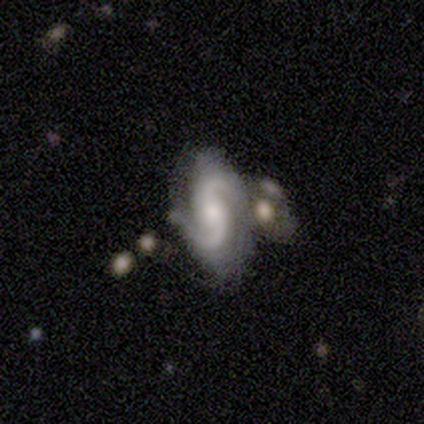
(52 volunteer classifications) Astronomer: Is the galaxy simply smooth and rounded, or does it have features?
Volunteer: featured or disk — 94%.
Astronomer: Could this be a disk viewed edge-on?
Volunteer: no — 98%.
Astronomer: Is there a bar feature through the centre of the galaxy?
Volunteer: no — 65%.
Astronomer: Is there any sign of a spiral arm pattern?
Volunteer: yes — 94%.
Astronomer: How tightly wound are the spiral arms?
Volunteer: medium — 53% (runner-up: loose, 33%).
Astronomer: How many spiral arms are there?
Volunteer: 2 — 91%.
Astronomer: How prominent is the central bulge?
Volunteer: moderate — 62%.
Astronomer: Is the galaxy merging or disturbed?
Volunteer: none — 57%.